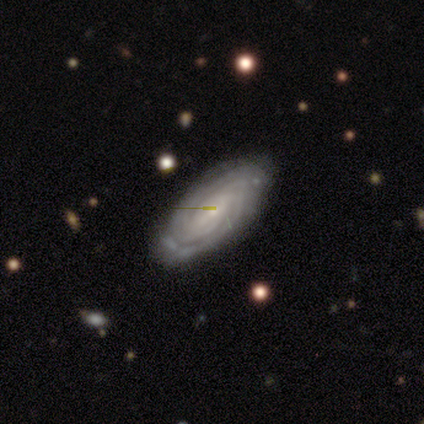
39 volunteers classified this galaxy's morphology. Smooth or featured: featured or disk — 79% (smooth — 13%)
Edge-on disk: no — 97% (yes — 3%)
Bar: no — 60% (weak — 30%)
Spiral arms: yes — 100%
Spiral winding: tight — 80% (medium — 17%)
Spiral arm count: can't tell — 37% (2 — 17%)
Bulge size: small — 77% (moderate — 17%)
Merging: none — 92% (minor disturbance — 8%)